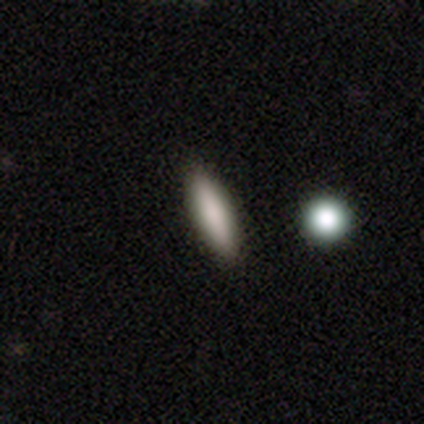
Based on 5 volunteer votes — smooth-or-featured: smooth: 80% | featured or disk: 20% | star or artifact: 0%
  how-rounded: in between: 50% (tied) | cigar-shaped: 50% (tied) | round: 0%
  merging: none: 80% | minor disturbance: 20% | major disturbance: 0% | merger: 0%